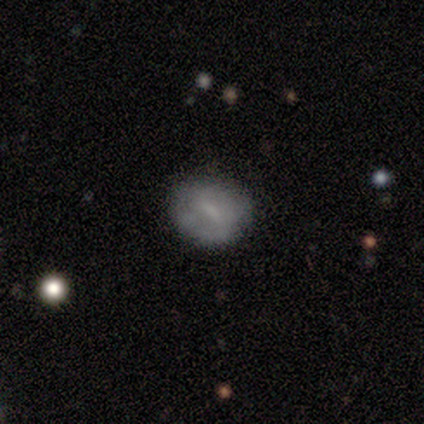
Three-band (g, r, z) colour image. It shows a smooth galaxy with no disk features (60%) that is round (100%). Merging: none (80%).